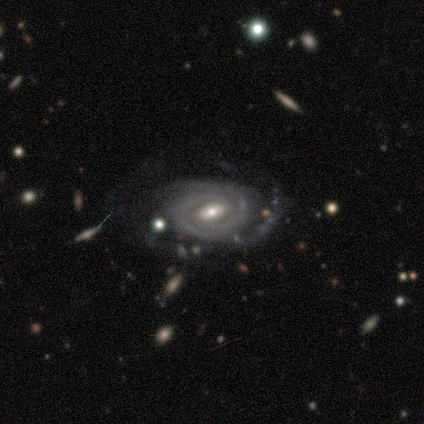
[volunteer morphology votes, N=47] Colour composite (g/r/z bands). It shows a featured or disk galaxy (94%) with a weak bar (52%), 2 (59%) tight (73%) spiral arms (93%) and a moderate central bulge (59%). Merging: none (50%).